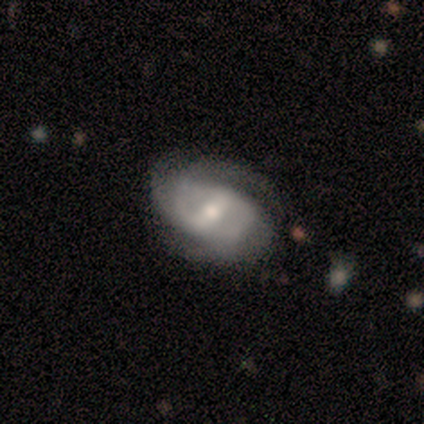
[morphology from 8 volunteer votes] This is likely a featured or disk galaxy (75%). It is clearly not viewed edge-on (100%). Bar: likely weak (67%). Spiral arm pattern: clearly yes (100%). Spiral arm count: likely 2 (67%). Spiral winding: marginally tight (33%, tied with medium and loose). Central bulge: likely moderate (67%). Merging: clearly none (88%).